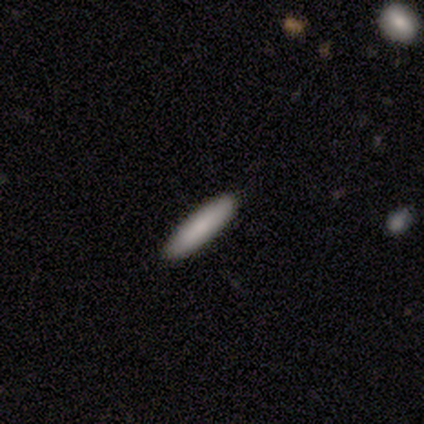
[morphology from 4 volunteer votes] This is clearly a smooth galaxy (100%). How rounded: clearly cigar-shaped (100%). Merging: clearly none (100%).